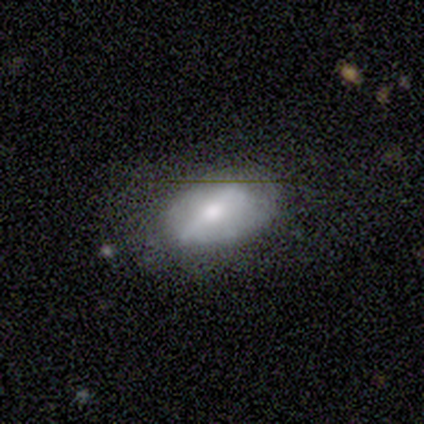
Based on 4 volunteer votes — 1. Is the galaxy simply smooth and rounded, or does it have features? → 75% smooth, 25% featured or disk, 0% star or artifact.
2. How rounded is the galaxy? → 100% in between, 0% round, 0% cigar-shaped.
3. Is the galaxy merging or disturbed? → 50% none (tied), 50% major disturbance (tied), 0% minor disturbance, 0% merger.